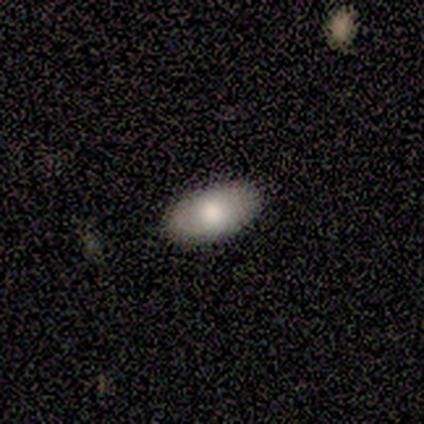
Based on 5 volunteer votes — smooth 100%, featured or disk 0%, star or artifact 0%. Down the decision tree: how rounded — in between (100%); merging — none (100%).